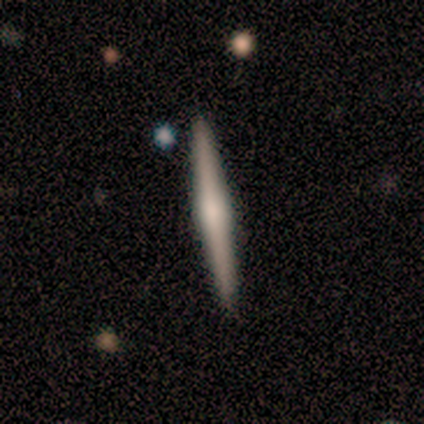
Volunteers were most divided on "edge-on bulge" (2-way tie): none: 50%, rounded: 50%, boxy: 0%. More confident: edge-on disk — yes (100%); merging — none (67%); smooth or featured — featured or disk (50%).